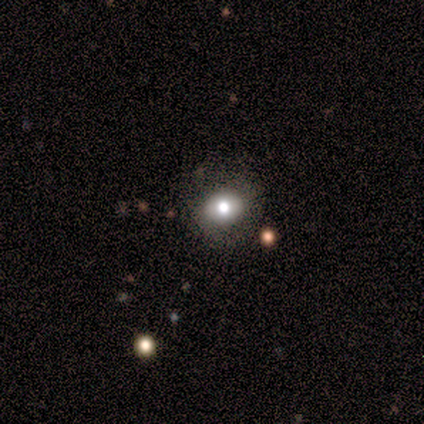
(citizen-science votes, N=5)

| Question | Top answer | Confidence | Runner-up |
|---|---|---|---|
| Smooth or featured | smooth | 60% | featured or disk (40%) |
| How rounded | round | 67% | in between (33%) |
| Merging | none | 80% | minor disturbance (20%) |